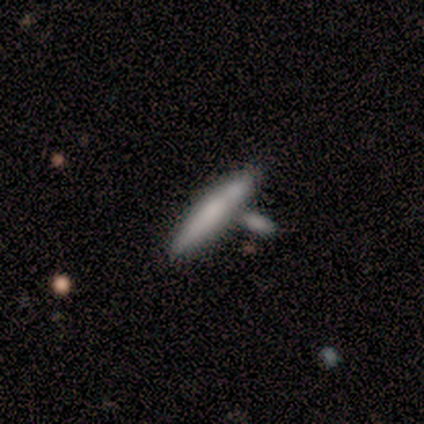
This is likely a smooth galaxy (60%). How rounded: clearly cigar-shaped (100%). Merging: marginally none (40%, tied with minor disturbance).